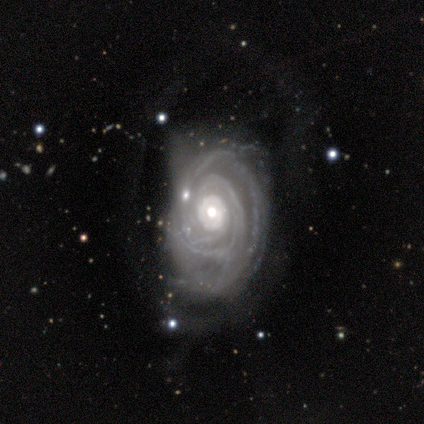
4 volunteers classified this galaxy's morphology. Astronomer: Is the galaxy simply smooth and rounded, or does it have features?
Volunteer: featured or disk — 100%.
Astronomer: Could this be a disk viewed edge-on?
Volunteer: no — 100%.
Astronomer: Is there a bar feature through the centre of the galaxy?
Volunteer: no — 100%.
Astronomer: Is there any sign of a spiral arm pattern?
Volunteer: yes — 100%.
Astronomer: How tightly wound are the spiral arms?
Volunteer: tight — 100%.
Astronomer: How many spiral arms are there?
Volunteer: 3 — 50%.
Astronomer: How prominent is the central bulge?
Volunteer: moderate — 75%.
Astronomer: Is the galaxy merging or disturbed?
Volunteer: minor disturbance — 50%.